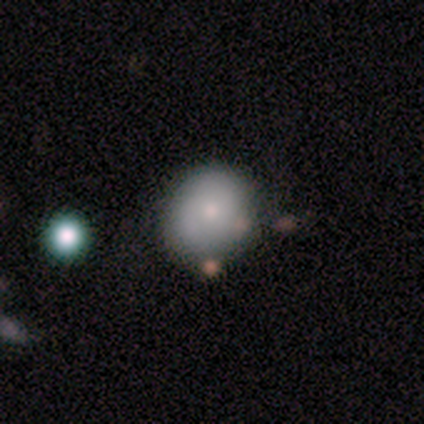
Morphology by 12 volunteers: smooth_or_featured: smooth (p=0.75) [alt: featured or disk p=0.17]
how_rounded: round (p=0.89) [alt: in between p=0.11]
merging: none (p=0.91) [alt: minor disturbance p=0.09]